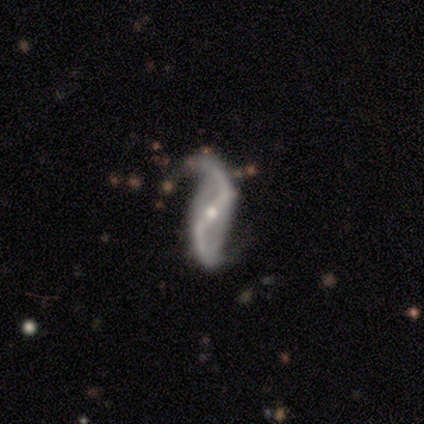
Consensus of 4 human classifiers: Morphology: type=featured or disk (75%); edge-on=no (100%); bar=strong (67%); spiral arms=yes (100%); winding=loose (100%); arm count=2 (100%); bulge=small (67%); merging=none (100%).